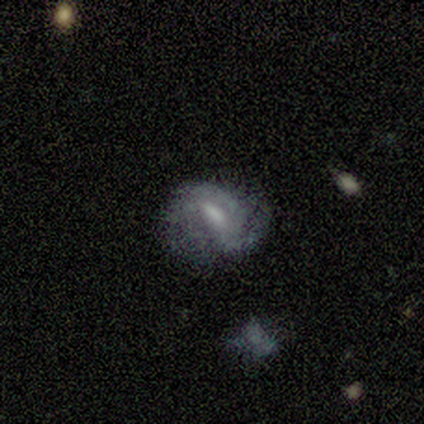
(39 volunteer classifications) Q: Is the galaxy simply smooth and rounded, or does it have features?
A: featured or disk — 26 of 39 (67%).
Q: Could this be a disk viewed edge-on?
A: no — 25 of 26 (96%).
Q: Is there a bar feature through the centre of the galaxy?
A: weak — 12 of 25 (48%).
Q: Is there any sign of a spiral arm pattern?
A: yes — 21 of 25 (84%).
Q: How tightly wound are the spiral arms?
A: medium — 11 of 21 (52%).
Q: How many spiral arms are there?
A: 2 — 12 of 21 (57%).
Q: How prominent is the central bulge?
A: moderate — 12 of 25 (48%).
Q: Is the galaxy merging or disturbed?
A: none — 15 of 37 (41%).